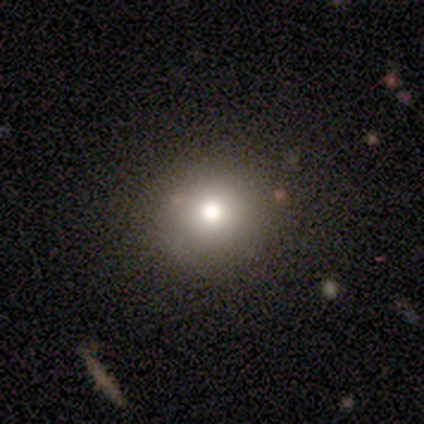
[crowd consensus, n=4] A star or artifact, not a galaxy (50%).